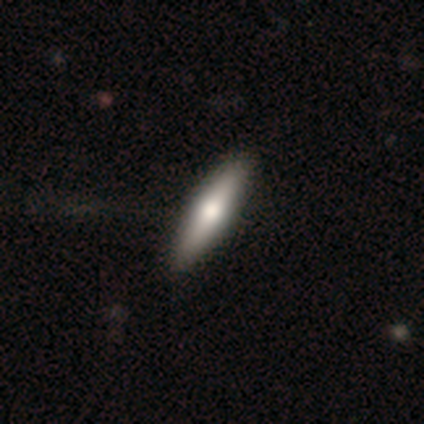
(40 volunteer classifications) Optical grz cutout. It shows a featured or disk galaxy (57%) viewed edge-on (91%) with a rounded central bulge (90%). Merging: none (49%).